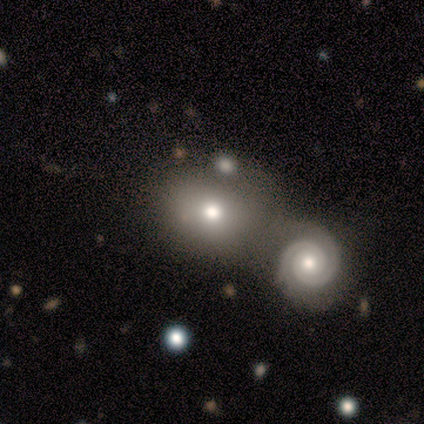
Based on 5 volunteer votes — Overall: featured or disk (60%; smooth 40%). Edge-on disk: no (100%). Bar: no (67%; weak 33%). Spiral arms: yes (100%). Spiral arm count: 2 (100%). Spiral winding: tight (67%; medium 33%). Bulge size: moderate (67%; none 33%). Merging: none (40%, tied with merger).